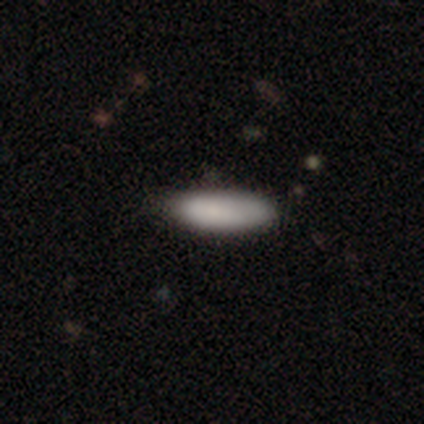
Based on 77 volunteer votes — A smooth galaxy with no disk features (90%) that is in between round and cigar-shaped (70%).

Vote fractions:
- Smooth or featured? smooth: 90% / featured or disk: 8% / star or artifact: 3%
- How rounded? in between: 70% / cigar-shaped: 30% / round: 0%
- Merging? none: 35% / minor disturbance: 11% / merger: 5% / major disturbance: 4%